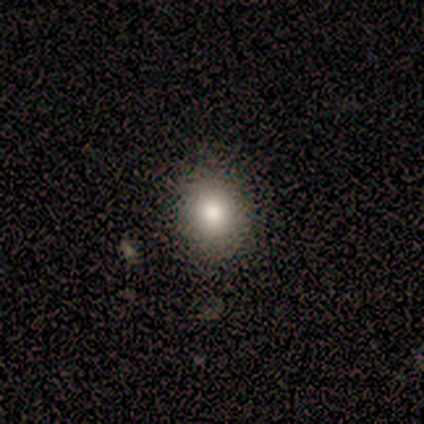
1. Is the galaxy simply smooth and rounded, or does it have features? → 100% smooth, 0% featured or disk, 0% star or artifact.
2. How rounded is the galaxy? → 60% in between, 40% round, 0% cigar-shaped.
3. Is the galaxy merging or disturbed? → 100% none, 0% minor disturbance, 0% major disturbance, 0% merger.